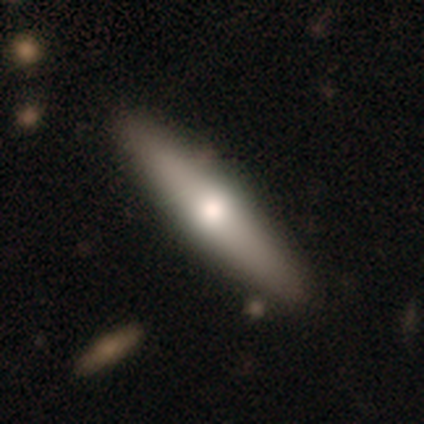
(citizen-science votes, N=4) smooth-or-featured: featured or disk: 75% | smooth: 25% | star or artifact: 0%
  disk-edge-on: yes: 100% | no: 0%
    edge-on-bulge: rounded: 100% | boxy: 0% | none: 0%
  merging: none: 100% | minor disturbance: 0% | major disturbance: 0% | merger: 0%